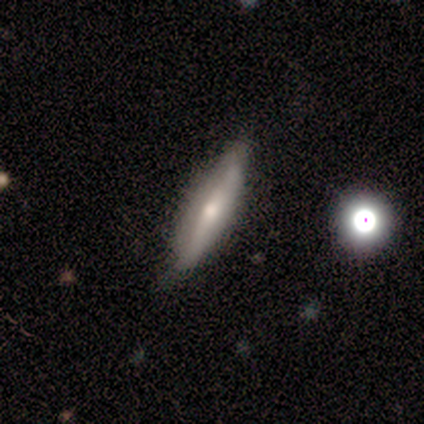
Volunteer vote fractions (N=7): Overall: featured or disk (57%; smooth 29%). Edge-on disk: yes (75%). Edge-on bulge: rounded (67%; none 33%). Merging: none (67%; minor disturbance 33%).